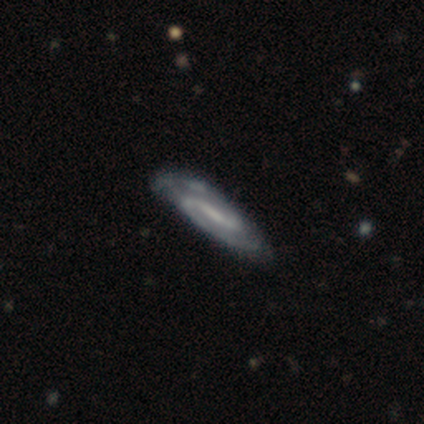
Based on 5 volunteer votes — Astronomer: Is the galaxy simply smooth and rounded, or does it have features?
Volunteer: featured or disk — 100%.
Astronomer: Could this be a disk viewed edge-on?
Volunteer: no — 100%.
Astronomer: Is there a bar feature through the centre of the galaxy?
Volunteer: weak — 80%.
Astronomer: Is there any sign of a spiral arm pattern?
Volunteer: yes — 100%.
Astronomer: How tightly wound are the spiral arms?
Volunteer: medium — 60% (runner-up: loose, 40%).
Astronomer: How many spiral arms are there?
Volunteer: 2 — 60% (runner-up: can't tell, 40%).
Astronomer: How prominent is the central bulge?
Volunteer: small — 40%, tied with none at 40%.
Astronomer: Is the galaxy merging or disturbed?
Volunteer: none — 80%.